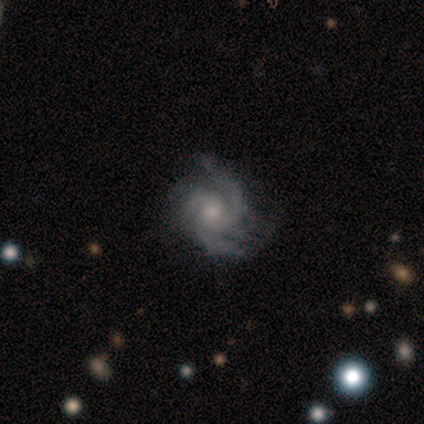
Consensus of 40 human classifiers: This appears to be a featured or disk galaxy (88%) with no bar (83%), 3 (57%) medium (69%) spiral arms (100%) and a small central bulge (46%). Merging: none (63%).